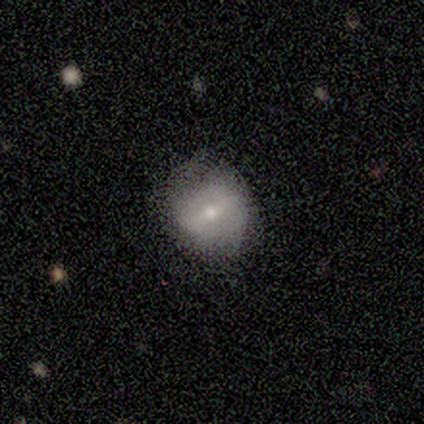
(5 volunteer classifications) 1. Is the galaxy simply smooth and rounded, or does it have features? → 40% smooth (tied), 40% featured or disk (tied), 20% star or artifact.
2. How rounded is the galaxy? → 50% round (tied), 50% in between (tied), 0% cigar-shaped.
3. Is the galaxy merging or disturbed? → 75% none, 25% minor disturbance, 0% major disturbance, 0% merger.